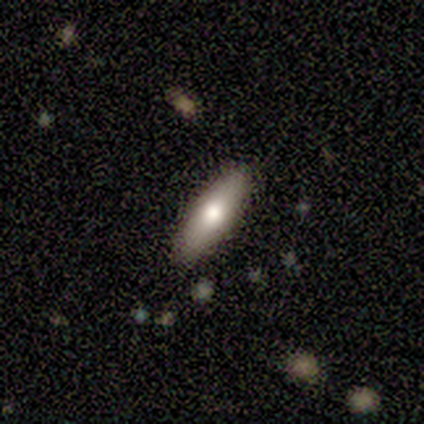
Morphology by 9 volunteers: This appears to be a smooth galaxy with no disk features (89%) that is in between round and cigar-shaped (62%). Merging: none (78%).